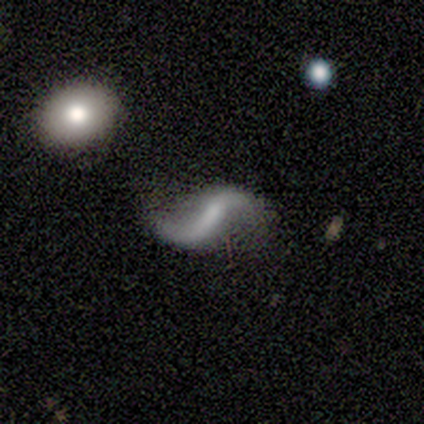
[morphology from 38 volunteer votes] Overall: featured or disk (74%). Edge-on disk: no (96%). Bar: weak (56%; strong 26%). Spiral arms: yes (96%). Spiral arm count: 2 (92%). Spiral winding: loose (92%). Bulge size: none (41%; small 33%). Merging: none (71%).